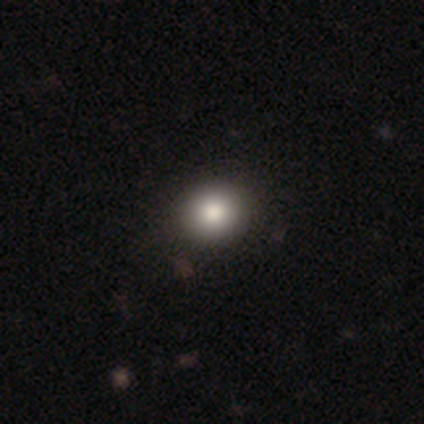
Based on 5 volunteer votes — This is clearly a smooth galaxy (80%). How rounded: clearly round (100%). Merging: likely none (75%).